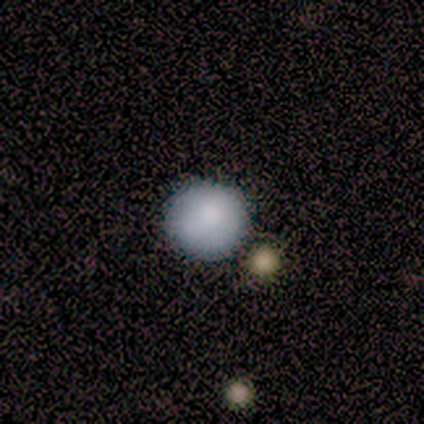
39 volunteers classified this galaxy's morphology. Smooth or featured?
  - smooth: 90% *
  - featured or disk: 8%
  - star or artifact: 3%
How rounded?
  - round: 94% *
  - in between: 6%
  - cigar-shaped: 0%
Merging?
  - none: 82% *
  - minor disturbance: 8%
  - merger: 8%
  - major disturbance: 3%